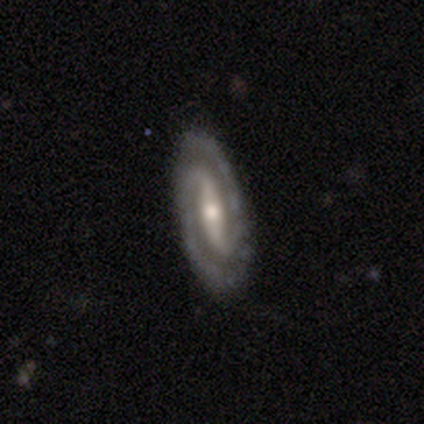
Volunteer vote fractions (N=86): smooth-or-featured: featured or disk: 91% | smooth: 7% | star or artifact: 2%
  disk-edge-on: no: 95% | yes: 5%
    bar: strong: 66% | weak: 26% | no: 8%
    has-spiral-arms: yes: 97% | no: 3%
      spiral-winding: tight: 57% | medium: 36% | loose: 7%
      spiral-arm-count: 2: 96% | can't tell: 3% | 3: 1% | 1: 0% | 4: 0% | more than 4: 0%
    bulge-size: moderate: 55% | small: 36% | large: 5% | none: 3% | dominant: 0%
  merging: none: 93% | minor disturbance: 6% | major disturbance: 1% | merger: 0%